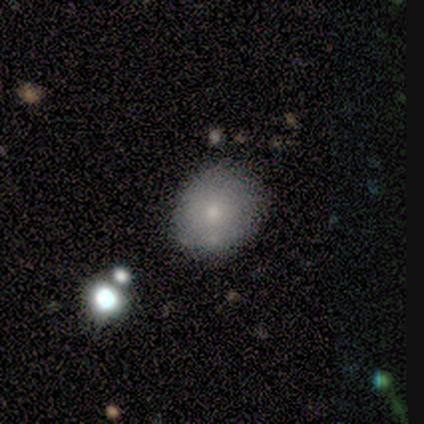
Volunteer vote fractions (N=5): Q: Smooth or featured?
A: smooth (80%); runner-up: featured or disk (20%)
Q: How rounded?
A: in between (75%); runner-up: round (25%)
Q: Merging?
A: none (60%); runner-up: minor disturbance (20%)